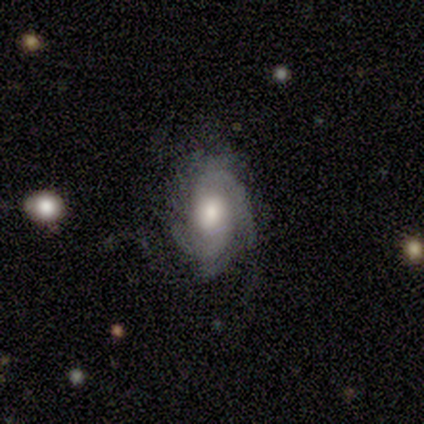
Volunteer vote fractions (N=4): Smooth or featured? 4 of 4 (100%) said featured or disk. Edge-on disk? 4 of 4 (100%) said no. Bar? 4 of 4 (100%) said no. Spiral arms? 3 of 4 (75%) said yes. Spiral winding? 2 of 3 (67%) said tight. Spiral arm count? 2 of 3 (67%) said 3. Bulge size? 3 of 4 (75%) said moderate. Merging? 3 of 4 (75%) said none.